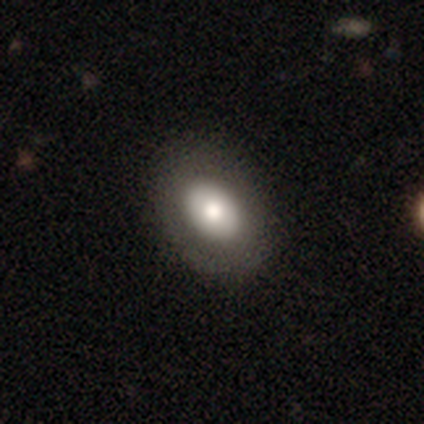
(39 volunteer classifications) Morphology: type=smooth (64%); roundness=in between (80%); merging=none (91%).